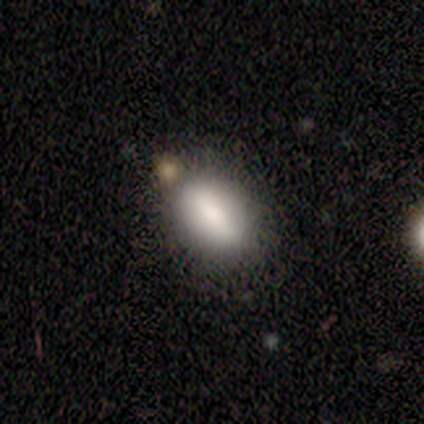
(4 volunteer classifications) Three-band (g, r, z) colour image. It shows a smooth galaxy with no disk features (50%) that is in between round and cigar-shaped (100%). Merging: none (100%).